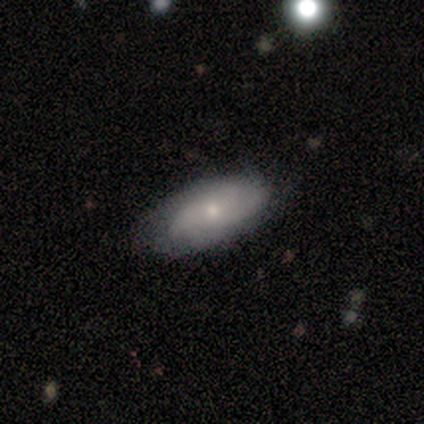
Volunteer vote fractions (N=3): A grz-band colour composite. It shows a smooth galaxy with no disk features (33%, tied with featured or disk and star or artifact) that is in between round and cigar-shaped (100%). Merging: none (50%, tied with minor disturbance).